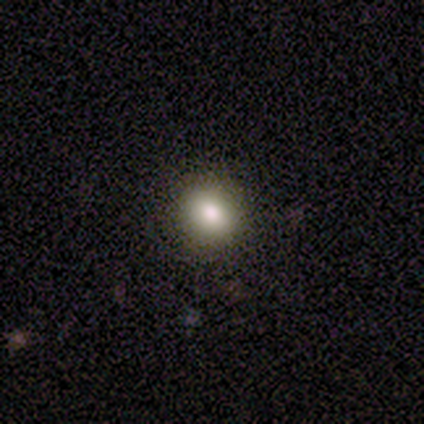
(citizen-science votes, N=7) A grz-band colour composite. It shows a smooth galaxy with no disk features (86%) that is round (83%). Merging: none (83%).